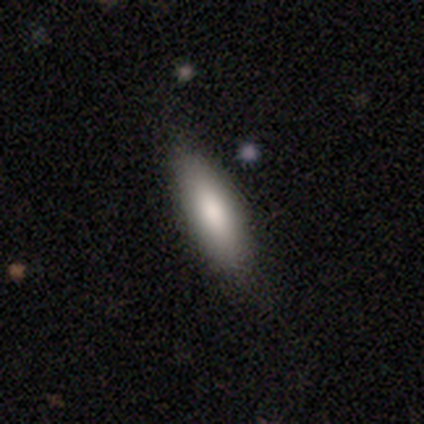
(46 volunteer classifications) Volunteers were most divided on "how rounded": cigar-shaped: 67%, in between: 33%, round: 0%. More confident: merging — none (86%); smooth or featured — smooth (85%).